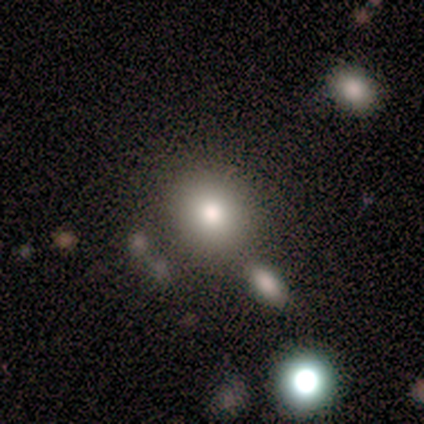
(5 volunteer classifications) Smooth or featured? smooth (100%)
How rounded? round (100%)
Merging? none (60%)